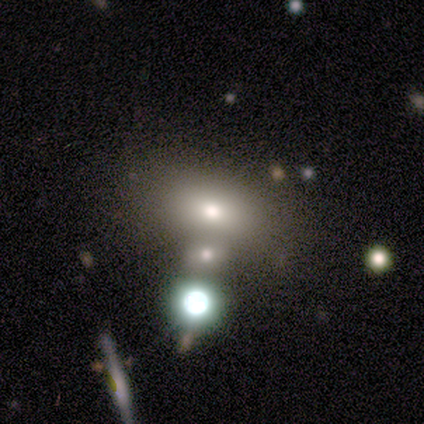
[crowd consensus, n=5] smooth-or-featured: smooth: 100% | featured or disk: 0% | star or artifact: 0%
  how-rounded: in between: 100% | round: 0% | cigar-shaped: 0%
  merging: none: 60% | minor disturbance: 40% | major disturbance: 0% | merger: 0%